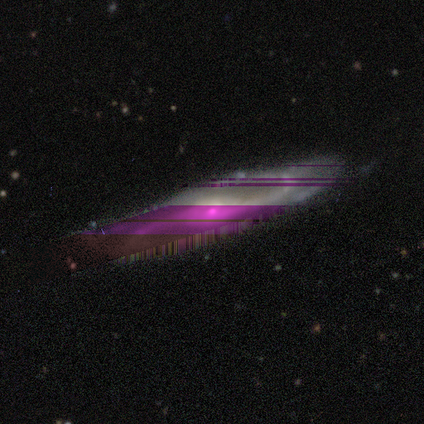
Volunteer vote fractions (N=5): Smooth or featured? star or artifact (60%)